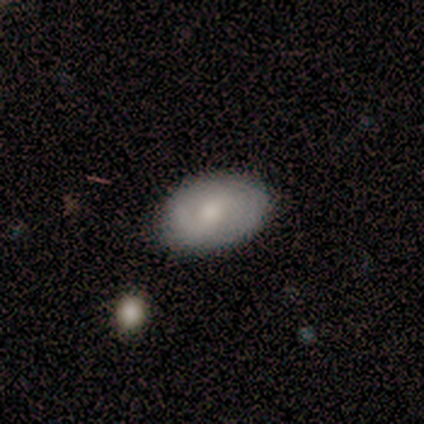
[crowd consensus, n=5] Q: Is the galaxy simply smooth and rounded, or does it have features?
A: smooth — 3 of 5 (60%).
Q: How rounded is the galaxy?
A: in between — 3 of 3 (100%).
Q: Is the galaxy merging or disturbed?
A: none — 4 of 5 (80%).